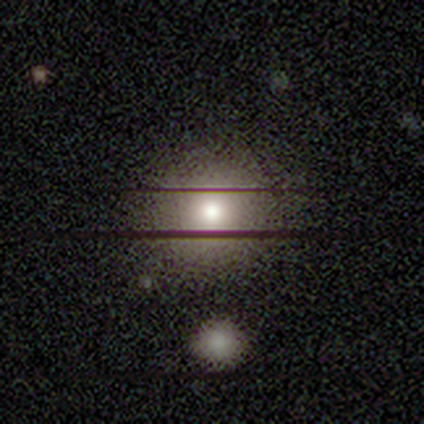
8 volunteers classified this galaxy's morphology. smooth-or-featured: smooth: 62% | star or artifact: 25% | featured or disk: 12%
  how-rounded: round: 100% | in between: 0% | cigar-shaped: 0%
  merging: none: 100% | minor disturbance: 0% | major disturbance: 0% | merger: 0%